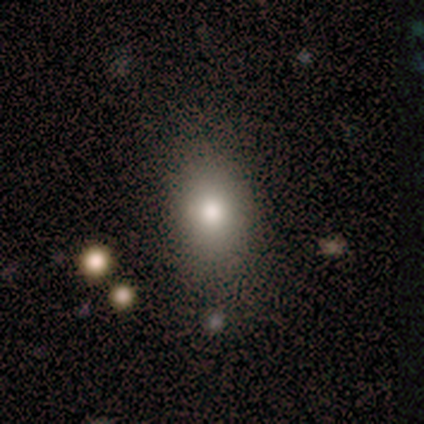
smooth 85%, star or artifact 13%, featured or disk 3%. Down the decision tree: how rounded — in between (76%); merging — none (74%).